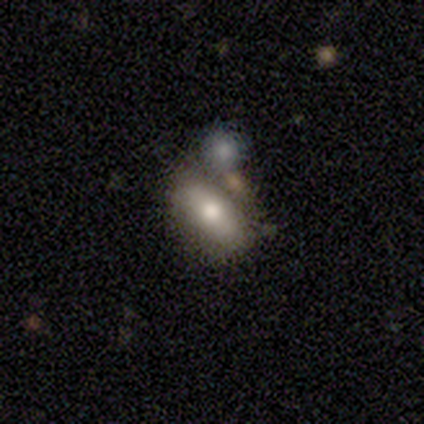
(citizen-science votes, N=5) This is clearly a smooth galaxy (80%). How rounded: clearly in between (100%). Merging: likely merger (60%).